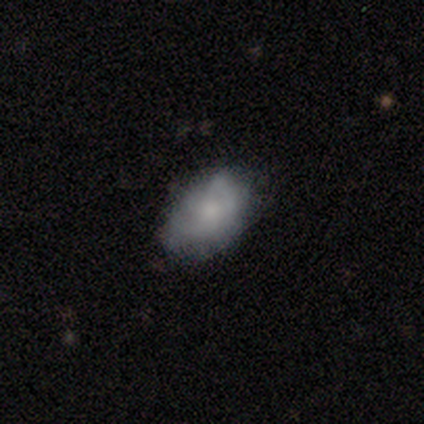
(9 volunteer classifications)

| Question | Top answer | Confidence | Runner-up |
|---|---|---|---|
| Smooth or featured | smooth | 89% | featured or disk (11%) |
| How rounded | in between | 88% | round (12%) |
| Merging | none | 67% | minor disturbance (33%) |